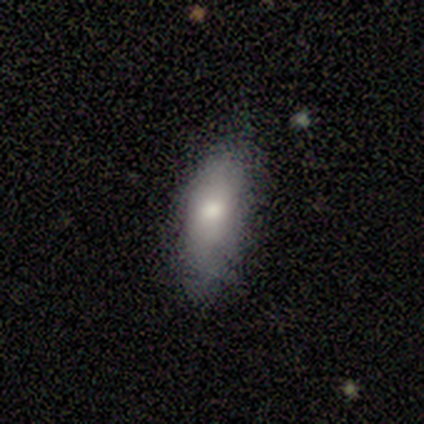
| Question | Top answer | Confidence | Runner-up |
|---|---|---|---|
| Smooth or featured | smooth | 100% | — |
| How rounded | in between | 100% | — |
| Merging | none | 100% | — |